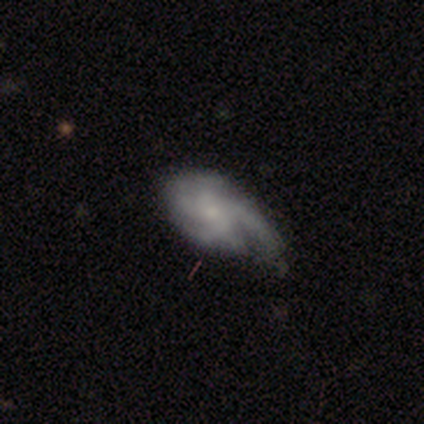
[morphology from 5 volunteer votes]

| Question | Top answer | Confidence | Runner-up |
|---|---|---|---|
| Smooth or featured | featured or disk | 80% | smooth (20%) |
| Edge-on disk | no | 100% | — |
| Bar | no | 75% | weak (25%) |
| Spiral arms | yes | 75% | no (25%) |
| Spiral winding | tight | 33% | tied: medium (33%), loose (33%) |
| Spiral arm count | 2 | 33% | tied: 3 (33%), more than 4 (33%) |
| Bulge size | small | 75% | moderate (25%) |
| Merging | none | 40% | tied: major disturbance (40%) |